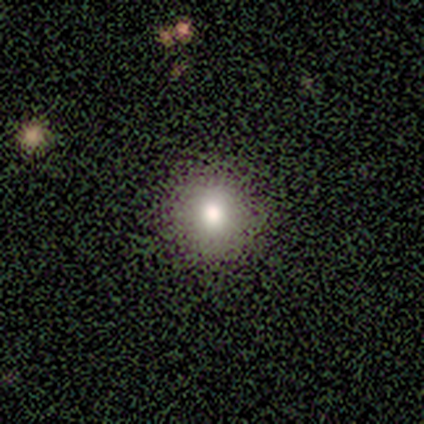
A smooth galaxy with no disk features (80%) that is round (100%). Merging: none (100%).